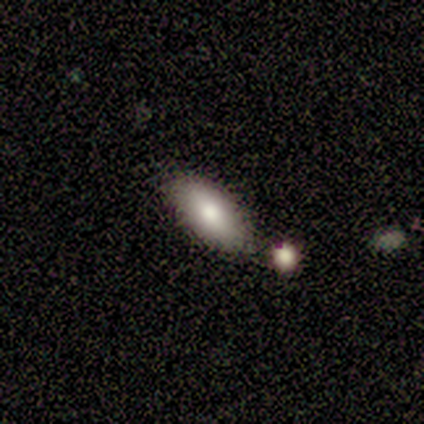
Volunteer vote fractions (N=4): Overall: smooth (100%). How rounded: in between (75%). Merging: none (100%).